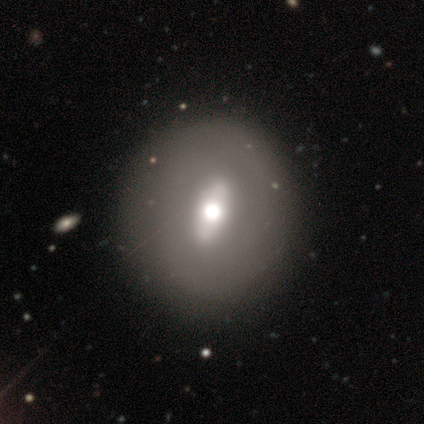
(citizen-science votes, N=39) This is possibly a smooth galaxy (51%). How rounded: likely round (60%). Merging: likely none (69%).